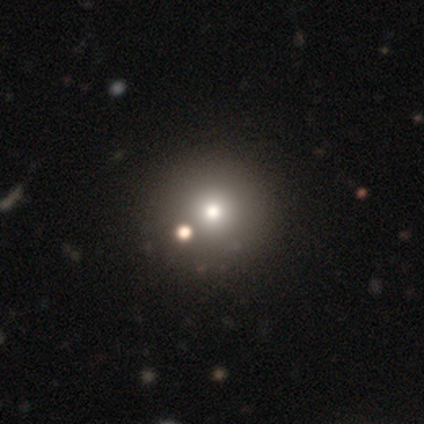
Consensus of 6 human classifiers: Smooth or featured?
  - smooth: 83% *
  - featured or disk: 17%
  - star or artifact: 0%
How rounded?
  - round: 100% *
  - in between: 0%
  - cigar-shaped: 0%
Merging?
  - none: 100% *
  - minor disturbance: 0%
  - major disturbance: 0%
  - merger: 0%